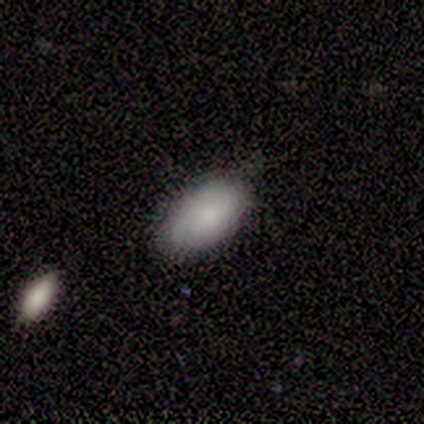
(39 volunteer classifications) Smooth or featured?
  - smooth: 95% *
  - featured or disk: 5%
  - star or artifact: 0%
How rounded?
  - in between: 97% *
  - round: 3%
  - cigar-shaped: 0%
Merging?
  - none: 82% *
  - minor disturbance: 15%
  - major disturbance: 3%
  - merger: 0%